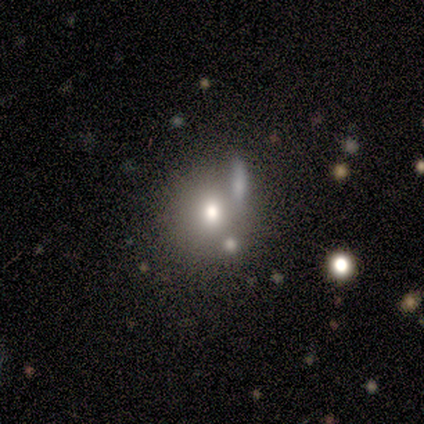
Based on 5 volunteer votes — Smooth or featured?
  - smooth: 100% *
  - featured or disk: 0%
  - star or artifact: 0%
How rounded?
  - round: 100% *
  - in between: 0%
  - cigar-shaped: 0%
Merging?
  - none: 60% *
  - merger: 40%
  - minor disturbance: 0%
  - major disturbance: 0%